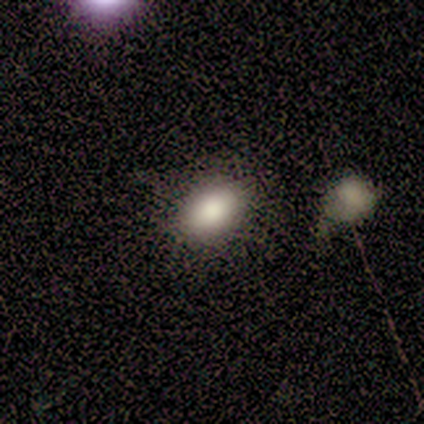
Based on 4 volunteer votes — Morphology: type=smooth (100%); roundness=in between (100%); merging=none (75%).